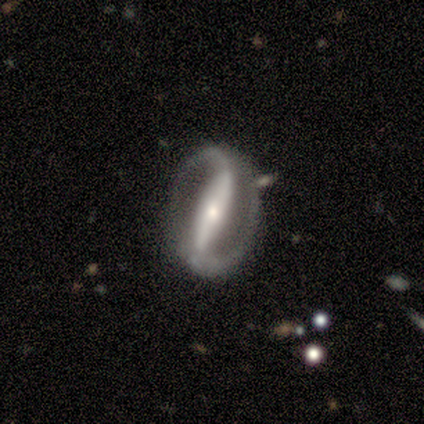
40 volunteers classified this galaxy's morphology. Smooth or featured? featured or disk (90%)
Edge-on disk? no (100%)
Bar? strong (86%)
Spiral arms? yes (89%)
Spiral winding? loose (44%)
Spiral arm count? 2 (97%)
Bulge size? small (56%)
Merging? none (82%)